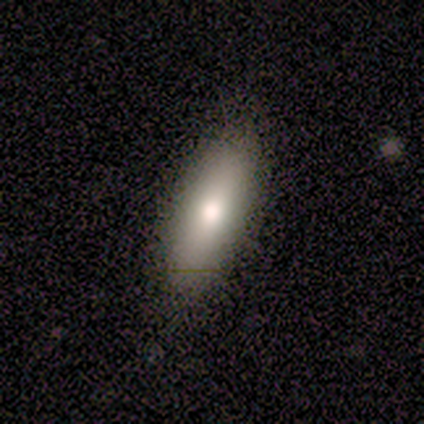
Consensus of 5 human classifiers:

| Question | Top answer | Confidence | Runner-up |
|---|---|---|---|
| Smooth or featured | smooth | 60% | featured or disk (40%) |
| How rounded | cigar-shaped | 67% | in between (33%) |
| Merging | none | 100% | — |